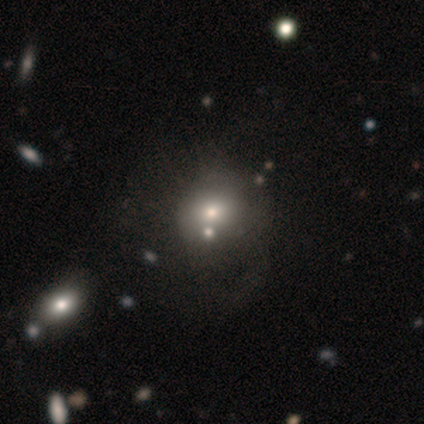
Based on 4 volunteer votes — smooth-or-featured: smooth: 75% | featured or disk: 25% | star or artifact: 0%
  how-rounded: round: 67% | in between: 33% | cigar-shaped: 0%
  merging: none: 50% (tied) | major disturbance: 50% (tied) | minor disturbance: 0% | merger: 0%